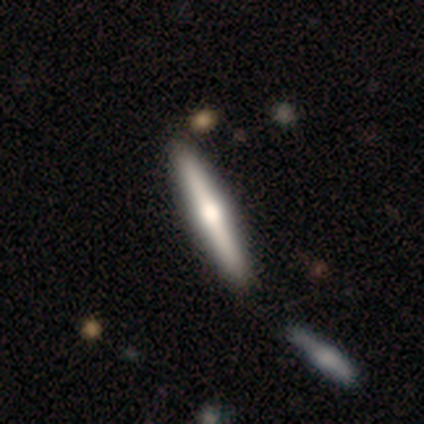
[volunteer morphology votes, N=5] Smooth or featured?
  - featured or disk: 60% *
  - smooth: 40%
  - star or artifact: 0%
Edge-on disk?
  - yes: 100% *
  - no: 0%
Edge-on bulge?
  - rounded: 100% *
  - boxy: 0%
  - none: 0%
Merging?
  - none: 80% *
  - minor disturbance: 20%
  - major disturbance: 0%
  - merger: 0%